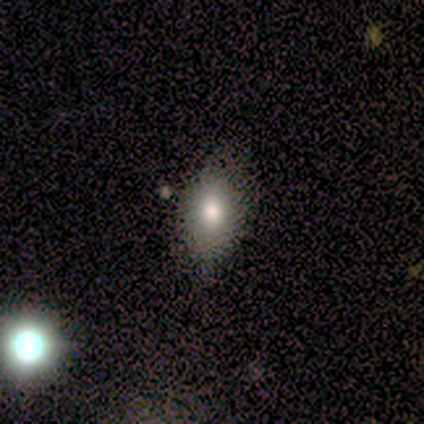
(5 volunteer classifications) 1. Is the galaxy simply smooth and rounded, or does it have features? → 60% smooth, 40% star or artifact, 0% featured or disk.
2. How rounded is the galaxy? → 100% in between, 0% round, 0% cigar-shaped.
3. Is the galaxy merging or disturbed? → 100% none, 0% minor disturbance, 0% major disturbance, 0% merger.